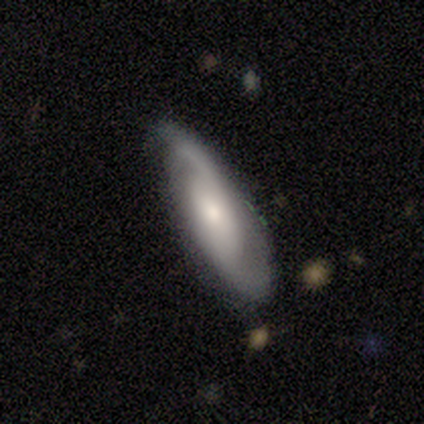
This is likely a featured or disk galaxy (60%). It is clearly not viewed edge-on (100%). Bar: clearly no (100%). Spiral arm pattern: clearly yes (100%). Spiral arm count: likely can't tell (67%). Spiral winding: clearly medium (100%). Central bulge: likely small (67%). Merging: clearly none (100%).